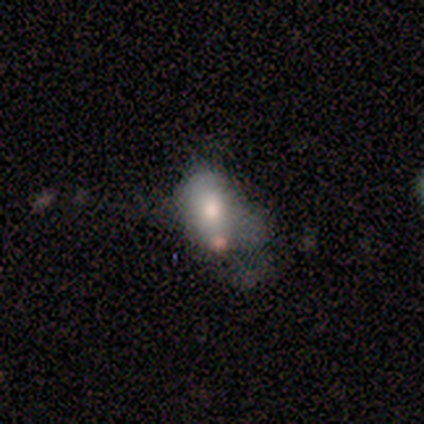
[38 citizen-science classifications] Smooth or featured: smooth — 55% (featured or disk — 34%)
How rounded: in between — 81% (round — 14%)
Merging: major disturbance — 50% (none — 18%)